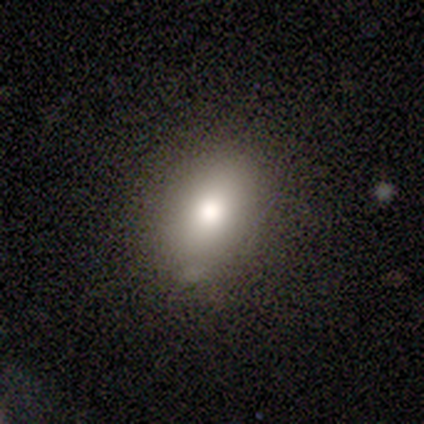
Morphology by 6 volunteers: type=star or artifact (50%).